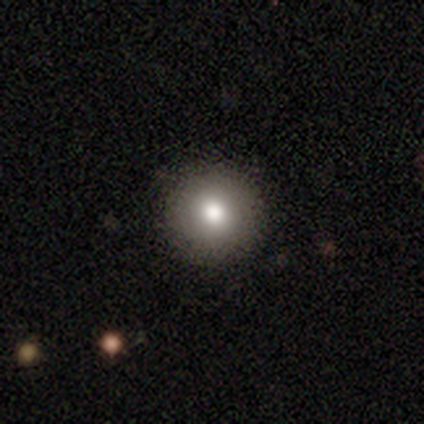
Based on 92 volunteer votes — Morphology: type=smooth (77%); roundness=round (97%); merging=none (89%).